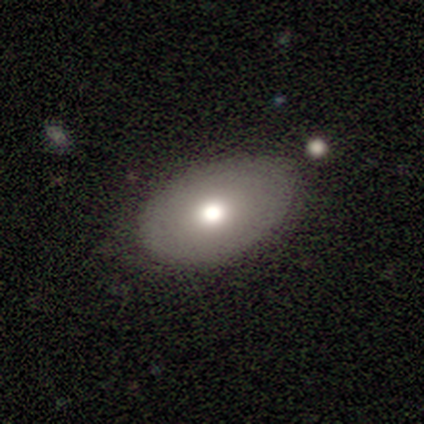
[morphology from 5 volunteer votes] Volunteers were most divided on "smooth or featured": smooth: 60%, featured or disk: 40%, star or artifact: 0%. More confident: merging — none (80%); how rounded — in between (67%).